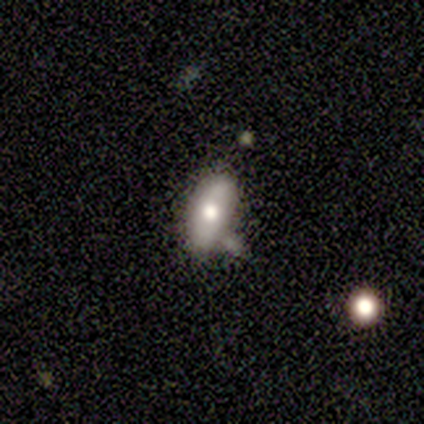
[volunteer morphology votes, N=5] smooth_or_featured: smooth (p=0.80) [alt: star or artifact p=0.20]
how_rounded: in between (p=1.00)
merging: minor disturbance (p=0.50) [alt: major disturbance p=0.25]